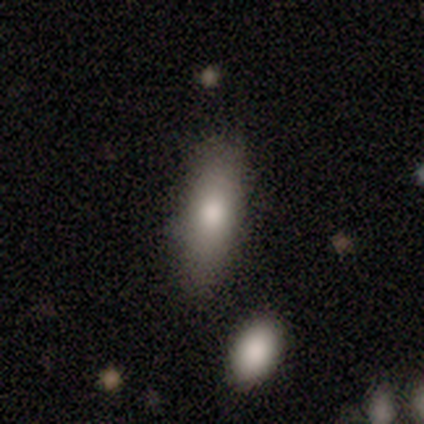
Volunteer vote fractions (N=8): This appears to be a smooth galaxy with no disk features (75%) that is in between round and cigar-shaped (67%). Merging: none (86%).